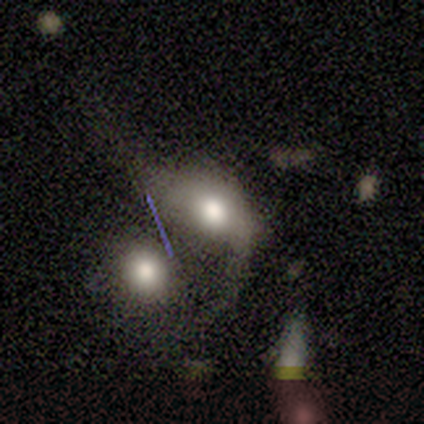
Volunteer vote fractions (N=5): This appears to be a smooth galaxy with no disk features (40%, tied with featured or disk) that is round (100%). Merging: merger (75%).